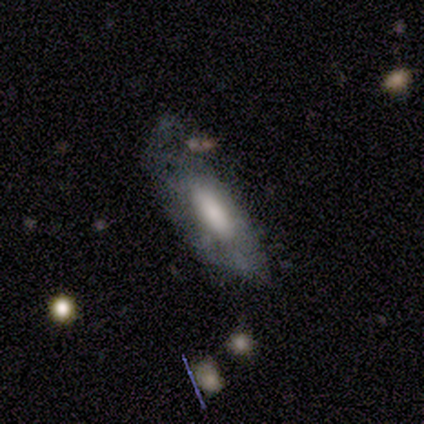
A smooth galaxy with no disk features (100%) that is in between round and cigar-shaped (75%). Merging: none (50%).